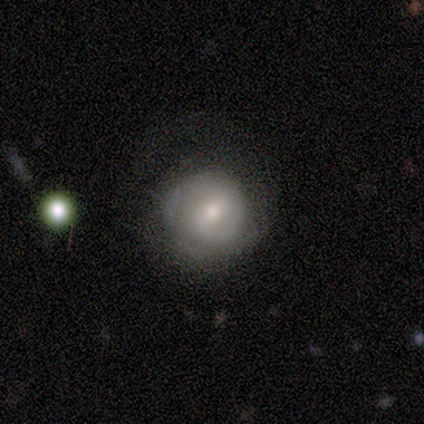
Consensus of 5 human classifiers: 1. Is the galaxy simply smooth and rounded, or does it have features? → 100% featured or disk, 0% smooth, 0% star or artifact.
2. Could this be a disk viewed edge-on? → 100% no, 0% yes.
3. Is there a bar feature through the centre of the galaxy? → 60% weak, 20% strong, 20% no.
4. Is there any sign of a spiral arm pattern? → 100% yes, 0% no.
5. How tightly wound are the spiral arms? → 80% tight, 20% loose, 0% medium.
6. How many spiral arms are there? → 60% 2, 20% 1, 20% can't tell, 0% 3, 0% 4, 0% more than 4.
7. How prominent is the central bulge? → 60% moderate, 40% small, 0% dominant, 0% large, 0% none.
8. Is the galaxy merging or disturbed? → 80% none, 20% major disturbance, 0% minor disturbance, 0% merger.